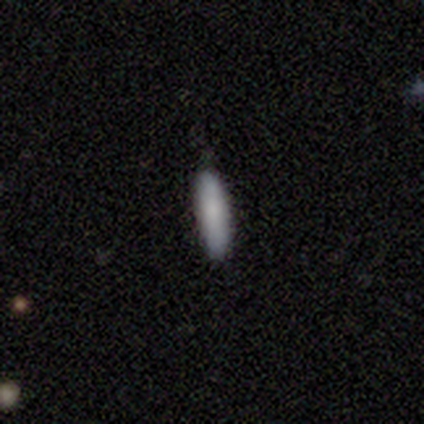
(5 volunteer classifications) Smooth or featured?
  - smooth: 80% *
  - star or artifact: 20%
  - featured or disk: 0%
How rounded?
  - cigar-shaped: 75% *
  - in between: 25%
  - round: 0%
Merging?
  - none: 50% * (tied)
  - minor disturbance: 50% * (tied)
  - major disturbance: 0%
  - merger: 0%